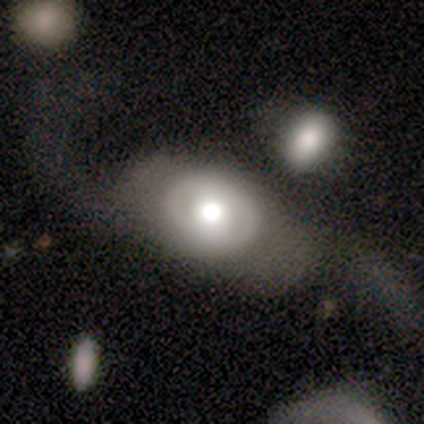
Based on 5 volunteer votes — Smooth or featured? 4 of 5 (80%) said featured or disk. Edge-on disk? 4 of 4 (100%) said no. Bar? 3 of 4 (75%) said no. Spiral arms? 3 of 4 (75%) said yes. Spiral winding? 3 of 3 (100%) said loose. Spiral arm count? 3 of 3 (100%) said 2. Bulge size? 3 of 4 (75%) said moderate. Merging? 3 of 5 (60%) said none.